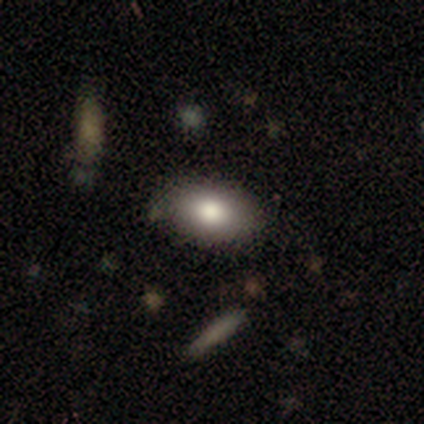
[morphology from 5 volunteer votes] Volunteers were most divided on "merging": none: 60%, minor disturbance: 20%, merger: 20%, major disturbance: 0%. More confident: how rounded — in between (100%); smooth or featured — smooth (80%).